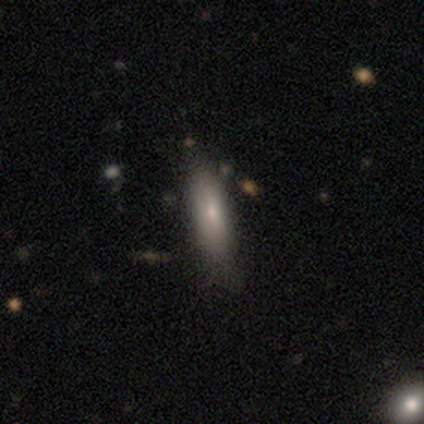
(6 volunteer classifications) smooth-or-featured: smooth: 100% | featured or disk: 0% | star or artifact: 0%
  how-rounded: cigar-shaped: 83% | in between: 17% | round: 0%
  merging: none: 83% | minor disturbance: 17% | major disturbance: 0% | merger: 0%